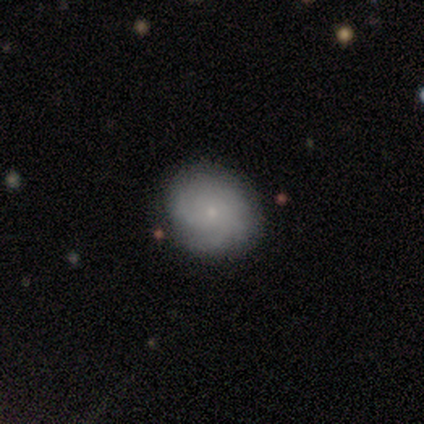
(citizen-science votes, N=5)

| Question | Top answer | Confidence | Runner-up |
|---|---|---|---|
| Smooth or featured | smooth | 60% | featured or disk (20%) |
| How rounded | round | 67% | in between (33%) |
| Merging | none | 75% | minor disturbance (25%) |